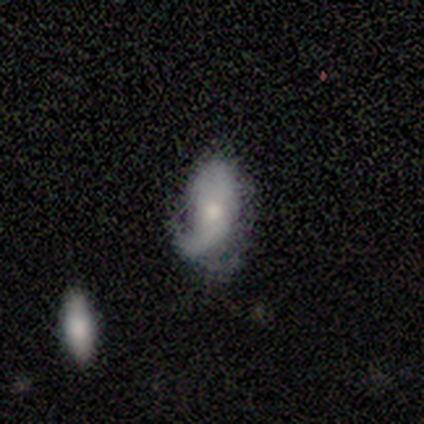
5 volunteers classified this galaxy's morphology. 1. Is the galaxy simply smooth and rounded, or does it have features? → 60% featured or disk, 40% smooth, 0% star or artifact.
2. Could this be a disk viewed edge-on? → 100% no, 0% yes.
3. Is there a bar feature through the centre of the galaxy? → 100% no, 0% strong, 0% weak.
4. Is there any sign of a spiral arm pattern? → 67% yes, 33% no.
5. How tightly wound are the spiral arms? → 50% medium (tied), 50% loose (tied), 0% tight.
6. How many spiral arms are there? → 50% 1 (tied), 50% 2 (tied), 0% 3, 0% 4, 0% more than 4, 0% can't tell.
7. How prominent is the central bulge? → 67% small, 33% moderate, 0% dominant, 0% large, 0% none.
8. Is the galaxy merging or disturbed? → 60% minor disturbance, 40% none, 0% major disturbance, 0% merger.